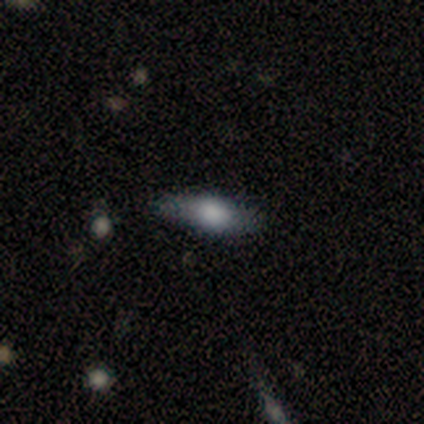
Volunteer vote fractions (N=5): Morphology: type=smooth (80%); roundness=in between (100%); merging=none (100%).